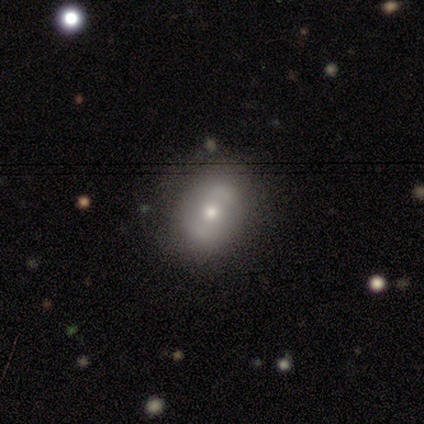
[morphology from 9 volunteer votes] Overall: featured or disk (56%; smooth 44%). Edge-on disk: no (100%). Bar: weak (60%; no 40%). Spiral arms: yes (60%; no 40%). Spiral arm count: 2 (100%). Spiral winding: loose (100%). Bulge size: moderate (100%). Merging: none (78%).